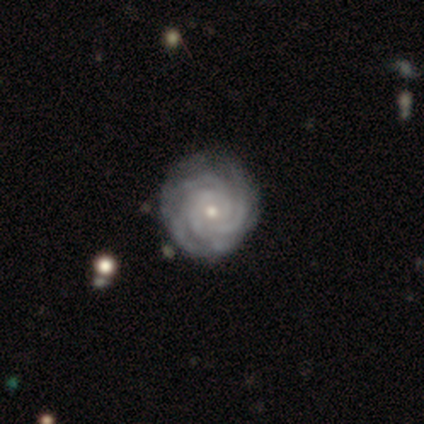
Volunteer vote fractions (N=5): This is clearly a featured or disk galaxy (100%). It is clearly not viewed edge-on (100%). Bar: likely no (60%). Spiral arm pattern: clearly yes (100%). Spiral arm count: clearly 4 (80%). Spiral winding: clearly tight (100%). Central bulge: marginally moderate (40%, tied with small). Merging: clearly none (80%).